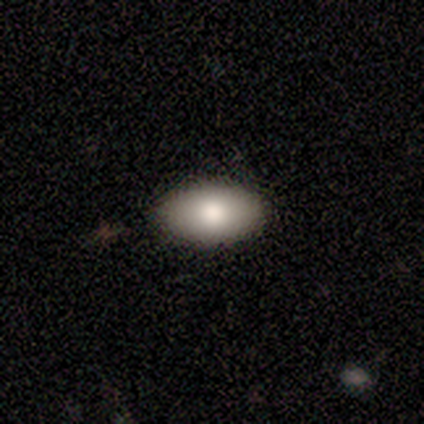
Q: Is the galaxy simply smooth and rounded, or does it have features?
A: smooth — 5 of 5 (100%).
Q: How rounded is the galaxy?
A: in between — 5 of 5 (100%).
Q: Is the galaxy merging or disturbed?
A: none — 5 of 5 (100%).